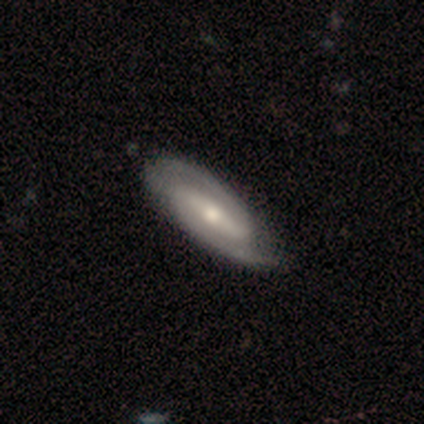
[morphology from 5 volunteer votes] Smooth or featured? featured or disk (100%)
Edge-on disk? no (100%)
Bar? weak (60%)
Spiral arms? yes (100%)
Spiral winding? medium (60%)
Spiral arm count? 2 (100%)
Bulge size? moderate (60%)
Merging? none (60%)